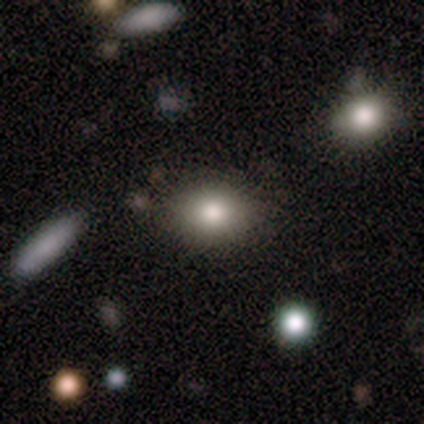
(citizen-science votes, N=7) Smooth or featured?
  - smooth: 100% *
  - featured or disk: 0%
  - star or artifact: 0%
How rounded?
  - round: 57% *
  - in between: 43%
  - cigar-shaped: 0%
Merging?
  - none: 86% *
  - merger: 14%
  - minor disturbance: 0%
  - major disturbance: 0%